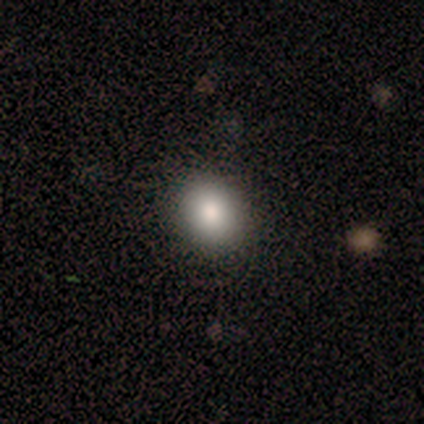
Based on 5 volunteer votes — A smooth galaxy with no disk features (100%) that is round (80%).

Vote fractions:
- Smooth or featured? smooth: 100% / featured or disk: 0% / star or artifact: 0%
- How rounded? round: 80% / in between: 20% / cigar-shaped: 0%
- Merging? none: 80% / minor disturbance: 20% / major disturbance: 0% / merger: 0%